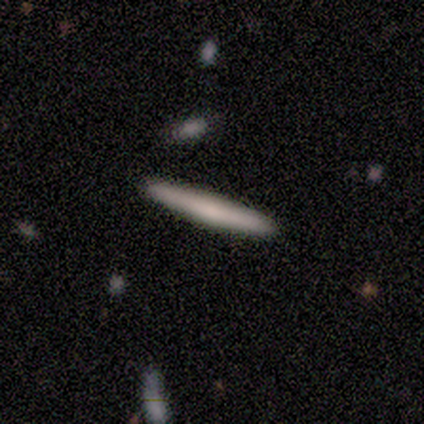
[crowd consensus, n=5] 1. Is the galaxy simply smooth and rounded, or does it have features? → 60% featured or disk, 40% smooth, 0% star or artifact.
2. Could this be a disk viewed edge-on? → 67% yes, 33% no.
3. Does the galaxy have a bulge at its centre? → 50% none (tied), 50% rounded (tied), 0% boxy.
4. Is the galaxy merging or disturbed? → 100% none, 0% minor disturbance, 0% major disturbance, 0% merger.